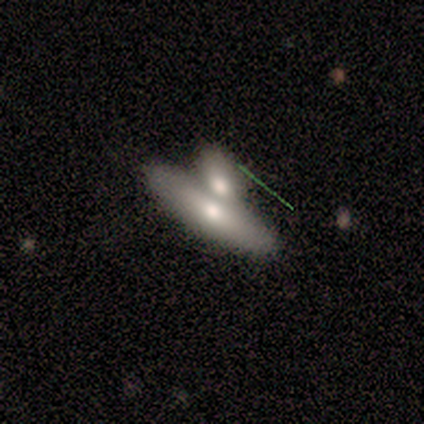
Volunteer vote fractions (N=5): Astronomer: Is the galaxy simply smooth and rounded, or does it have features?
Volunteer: featured or disk — 60% (runner-up: smooth, 40%).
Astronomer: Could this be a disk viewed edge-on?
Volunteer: no — 100%.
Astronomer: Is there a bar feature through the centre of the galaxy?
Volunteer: no — 100%.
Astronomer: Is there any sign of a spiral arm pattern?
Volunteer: no — 100%.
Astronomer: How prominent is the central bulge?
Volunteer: moderate — 100%.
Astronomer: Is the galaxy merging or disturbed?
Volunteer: merger — 80%.